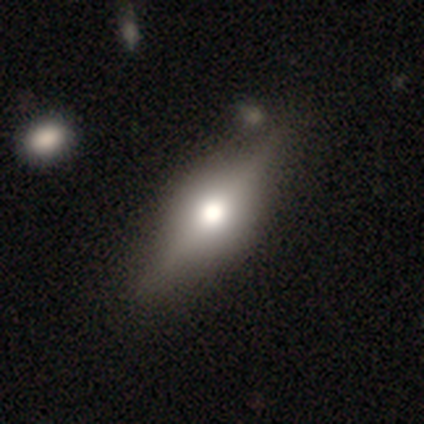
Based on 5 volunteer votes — smooth-or-featured: featured or disk: 60% | smooth: 40% | star or artifact: 0%
  disk-edge-on: yes: 100% | no: 0%
    edge-on-bulge: rounded: 100% | boxy: 0% | none: 0%
  merging: none: 80% | major disturbance: 20% | minor disturbance: 0% | merger: 0%